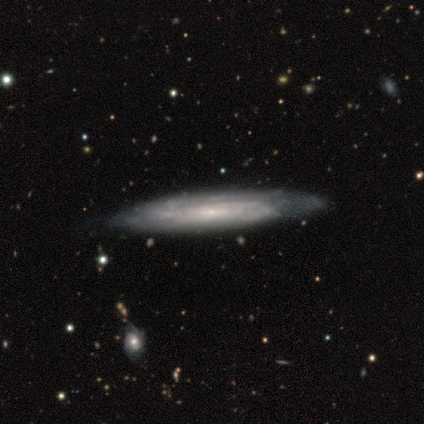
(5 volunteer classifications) Smooth or featured? 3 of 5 (60%) said featured or disk. Edge-on disk? 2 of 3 (67%) said no. Bar? 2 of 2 (100%) said no. Spiral arms? 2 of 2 (100%) said yes. Spiral winding? 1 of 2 (50%, tied with loose) said tight. Spiral arm count? 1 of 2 (50%, tied with can't tell) said 2. Bulge size? 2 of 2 (100%) said small. Merging? 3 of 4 (75%) said none.